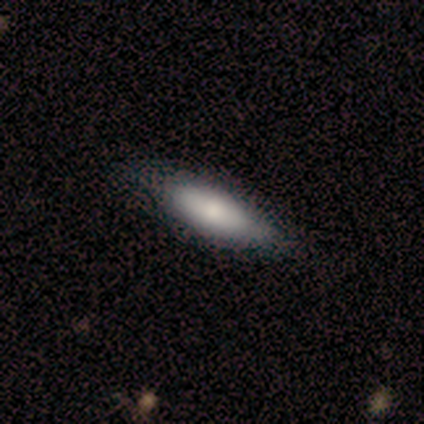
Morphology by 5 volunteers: smooth-or-featured: smooth: 60% | featured or disk: 40% | star or artifact: 0%
  how-rounded: in between: 67% | cigar-shaped: 33% | round: 0%
  merging: none: 80% | minor disturbance: 20% | major disturbance: 0% | merger: 0%